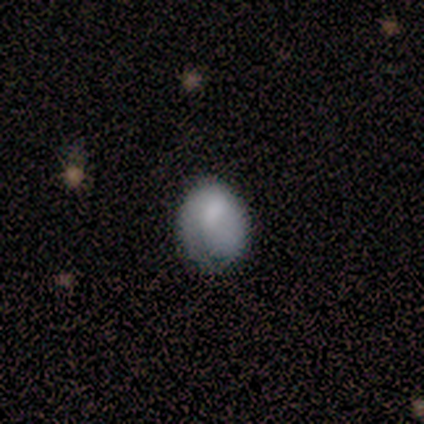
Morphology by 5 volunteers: Smooth or featured: smooth — 60% (featured or disk — 20%)
How rounded: in between — 67% (round — 33%)
Merging: major disturbance — 50% (none — 25%)